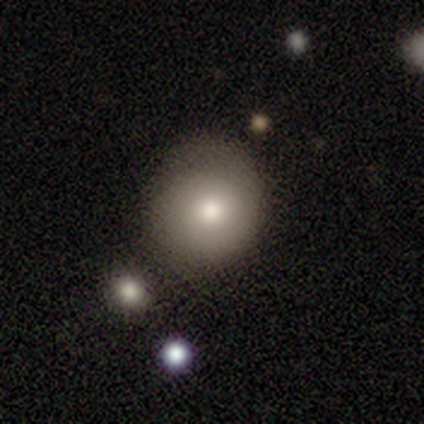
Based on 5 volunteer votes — smooth-or-featured: star or artifact: 60% | smooth: 40% | featured or disk: 0%